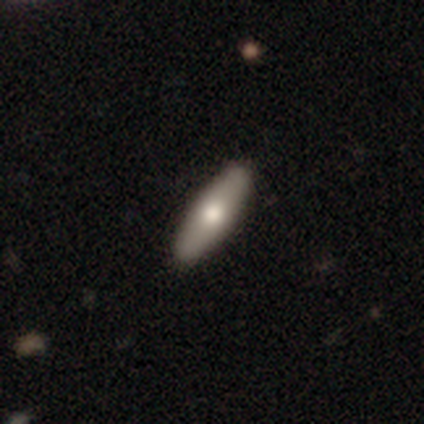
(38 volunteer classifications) smooth 68%, featured or disk 32%, star or artifact 0%. Down the decision tree: how rounded — cigar-shaped (65%); merging — none (95%).